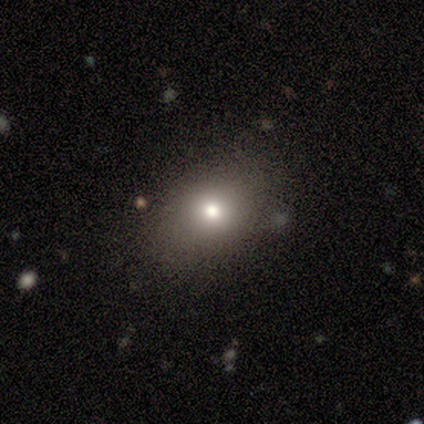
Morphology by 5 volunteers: A smooth galaxy with no disk features (100%) that is in between round and cigar-shaped (60%). Merging: minor disturbance (60%).